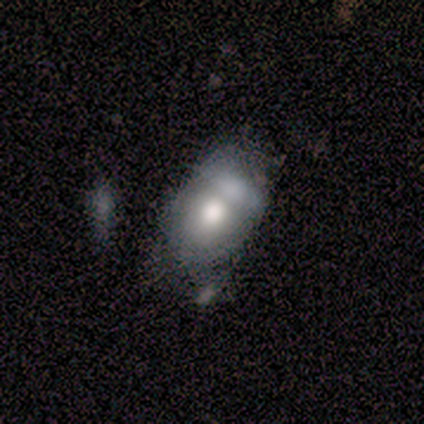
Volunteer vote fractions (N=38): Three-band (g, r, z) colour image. It shows a smooth galaxy with no disk features (63%) that is in between round and cigar-shaped (75%). Merging: merger (35%).